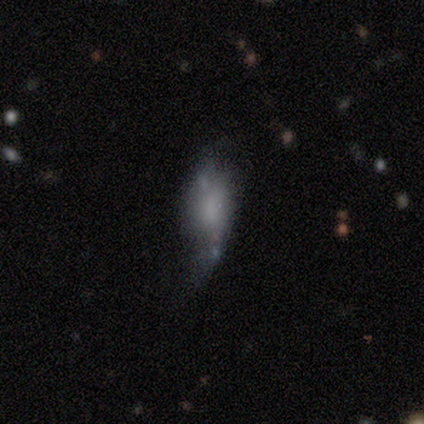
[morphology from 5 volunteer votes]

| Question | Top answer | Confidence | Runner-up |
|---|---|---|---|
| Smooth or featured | featured or disk | 60% | smooth (40%) |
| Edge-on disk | no | 67% | yes (33%) |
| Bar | no | 100% | — |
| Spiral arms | no | 100% | — |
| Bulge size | large | 50% | tied: small (50%) |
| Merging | minor disturbance | 40% | none (20%) |